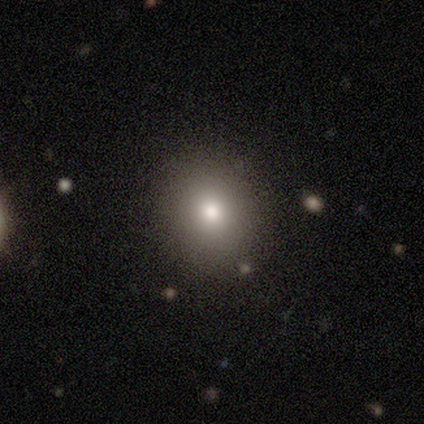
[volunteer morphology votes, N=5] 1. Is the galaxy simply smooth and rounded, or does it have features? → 100% smooth, 0% featured or disk, 0% star or artifact.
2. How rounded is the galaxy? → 80% round, 20% in between, 0% cigar-shaped.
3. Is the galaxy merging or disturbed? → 100% none, 0% minor disturbance, 0% major disturbance, 0% merger.